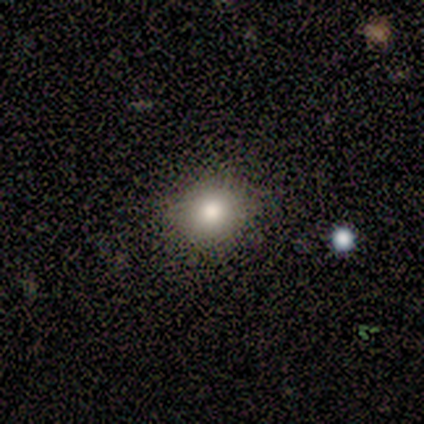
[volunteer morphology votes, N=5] This is clearly a smooth galaxy (100%). How rounded: clearly round (80%). Merging: clearly none (100%).